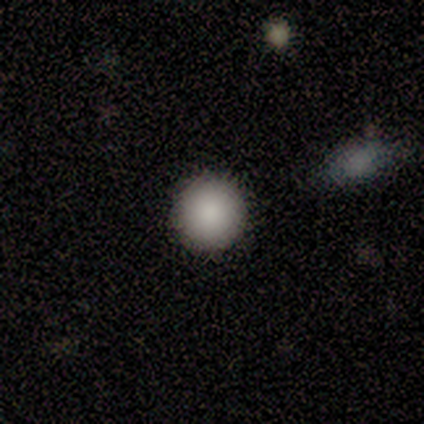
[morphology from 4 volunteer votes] This appears to be a smooth galaxy with no disk features (100%) that is round (100%). Merging: none (100%).